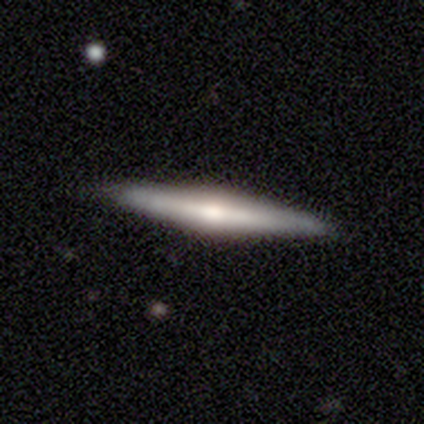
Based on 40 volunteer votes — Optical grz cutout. It shows a featured or disk galaxy (60%) viewed edge-on (100%) with a rounded central bulge (75%). Merging: none (98%).